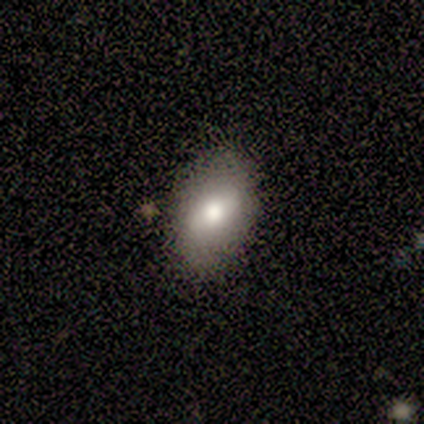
A featured or disk galaxy (67%) viewed edge-on (50%, tied with no) with a boxy central bulge (50%, tied with rounded). Merging: none (83%).